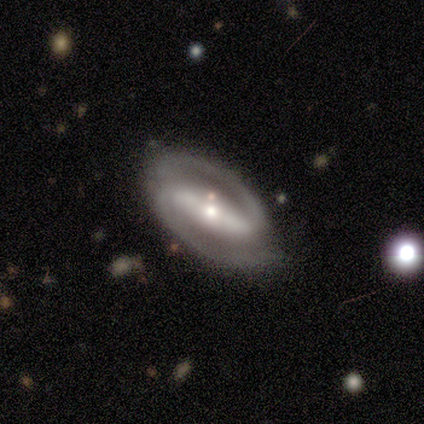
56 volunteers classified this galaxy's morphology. Volunteers were most divided on "bulge size": moderate: 45%, small: 43%, large: 9%, none: 2%, dominant: 0%. More confident: edge-on disk — no (100%); spiral arm count — 2 (96%); smooth or featured — featured or disk (95%); spiral arms — yes (94%); bar — strong (89%); merging — none (75%); spiral winding — medium (56%).